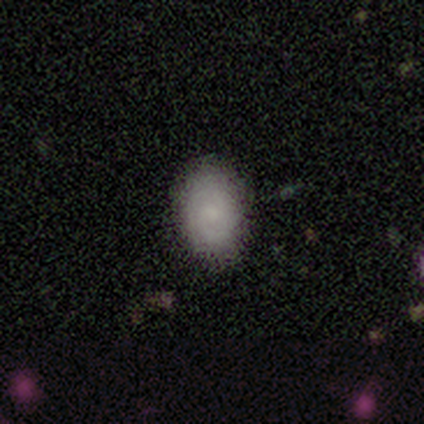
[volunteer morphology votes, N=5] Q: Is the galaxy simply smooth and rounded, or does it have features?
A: featured or disk — 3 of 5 (60%).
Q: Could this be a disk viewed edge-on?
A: no — 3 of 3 (100%).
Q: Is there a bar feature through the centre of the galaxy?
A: no — 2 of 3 (67%).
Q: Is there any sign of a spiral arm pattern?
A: yes — 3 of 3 (100%).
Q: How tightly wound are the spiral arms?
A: tight — 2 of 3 (67%).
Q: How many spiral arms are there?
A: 1 — 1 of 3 (33%, tied with 2 and can't tell).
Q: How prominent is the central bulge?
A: moderate — 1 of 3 (33%, tied with small and none).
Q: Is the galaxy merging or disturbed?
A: none — 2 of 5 (40%, tied with major disturbance).